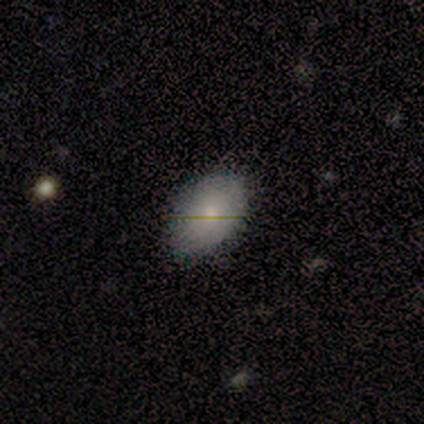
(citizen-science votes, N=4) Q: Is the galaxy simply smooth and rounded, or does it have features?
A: smooth — 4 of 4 (100%).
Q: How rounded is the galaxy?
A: in between — 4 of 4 (100%).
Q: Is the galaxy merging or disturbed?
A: none — 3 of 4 (75%).